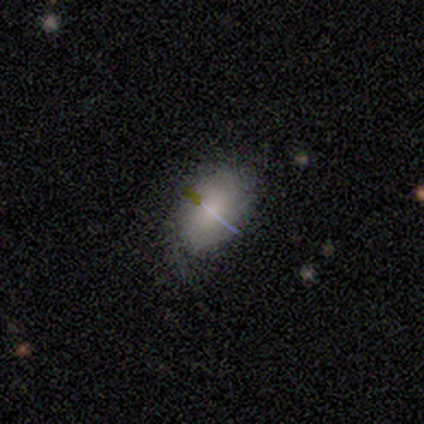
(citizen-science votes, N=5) Smooth or featured: smooth — 40% (tied with star or artifact — 40%)
How rounded: in between — 100%
Merging: none — 67% (minor disturbance — 33%)